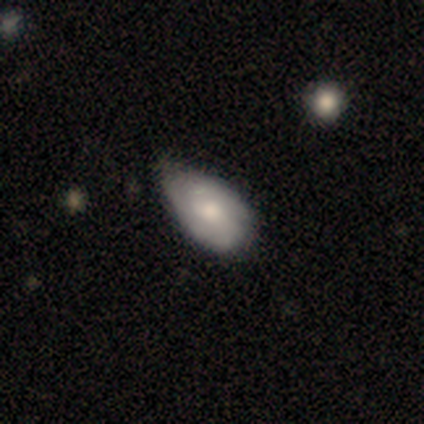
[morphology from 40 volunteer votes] Overall: smooth (57%; featured or disk 38%). How rounded: in between (96%). Merging: none (34%; minor disturbance 32%).